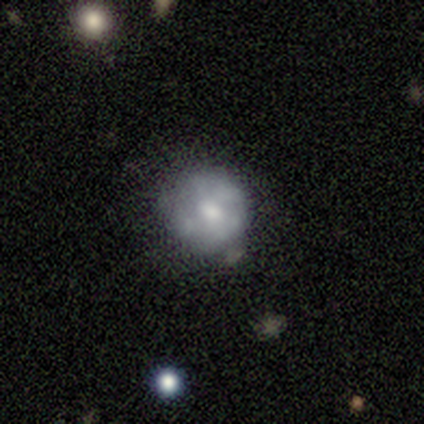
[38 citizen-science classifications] Smooth or featured?
  - featured or disk: 53% *
  - smooth: 42%
  - star or artifact: 5%
Edge-on disk?
  - no: 95% *
  - yes: 5%
Bar?
  - no: 89% *
  - weak: 11%
  - strong: 0%
Spiral arms?
  - no: 95% *
  - yes: 5%
Bulge size?
  - moderate: 47% *
  - small: 37%
  - large: 11%
  - none: 5%
  - dominant: 0%
Merging?
  - none: 64% *
  - minor disturbance: 22%
  - merger: 14%
  - major disturbance: 0%